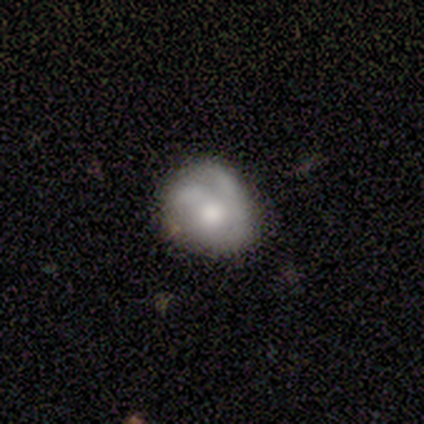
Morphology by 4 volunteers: Overall: smooth (50%; featured or disk 25%). How rounded: round (50%, tied with in between). Merging: none (67%; minor disturbance 33%).